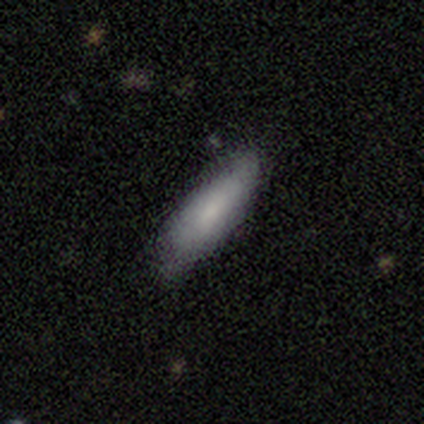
Q: Smooth or featured?
A: smooth (79%); runner-up: featured or disk (15%)
Q: How rounded?
A: in between (55%); runner-up: cigar-shaped (42%)
Q: Merging?
A: none (65%); runner-up: minor disturbance (27%)